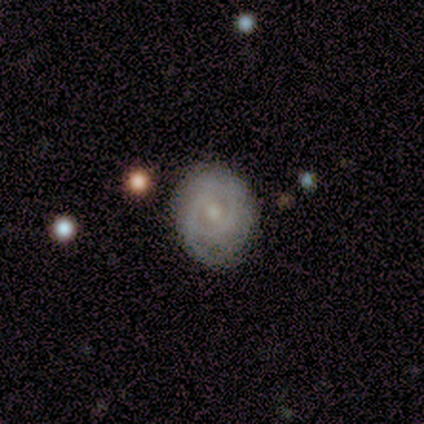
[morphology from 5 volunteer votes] smooth-or-featured: featured or disk: 60% | smooth: 40% | star or artifact: 0%
  disk-edge-on: no: 100% | yes: 0%
    bar: no: 67% | weak: 33% | strong: 0%
    has-spiral-arms: yes: 100% | no: 0%
      spiral-winding: tight: 67% | medium: 33% | loose: 0%
      spiral-arm-count: 2: 67% | 1: 33% | 3: 0% | 4: 0% | more than 4: 0% | can't tell: 0%
    bulge-size: moderate: 67% | small: 33% | dominant: 0% | large: 0% | none: 0%
  merging: none: 80% | minor disturbance: 20% | major disturbance: 0% | merger: 0%